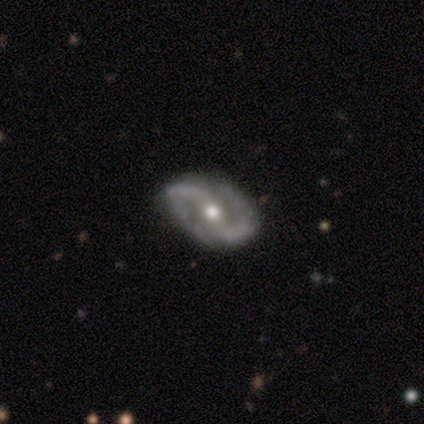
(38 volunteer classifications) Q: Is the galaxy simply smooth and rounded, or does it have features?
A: featured or disk — 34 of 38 (89%).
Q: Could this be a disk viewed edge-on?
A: no — 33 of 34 (97%).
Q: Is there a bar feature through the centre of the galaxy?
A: strong — 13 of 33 (39%).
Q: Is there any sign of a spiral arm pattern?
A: yes — 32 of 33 (97%).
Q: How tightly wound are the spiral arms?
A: medium — 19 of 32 (59%).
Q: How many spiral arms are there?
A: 2 — 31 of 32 (97%).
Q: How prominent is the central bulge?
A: moderate — 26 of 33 (79%).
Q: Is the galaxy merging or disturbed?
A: none — 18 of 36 (50%).